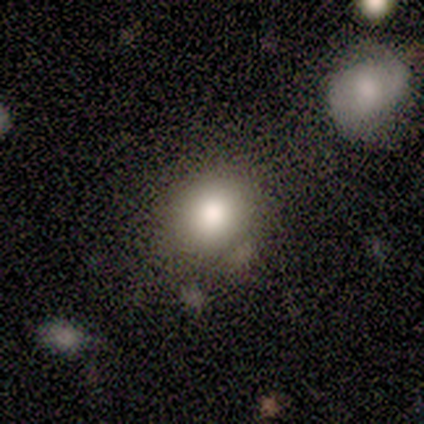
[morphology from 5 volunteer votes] This is likely a smooth galaxy (60%). How rounded: likely round (67%). Merging: likely none (75%).